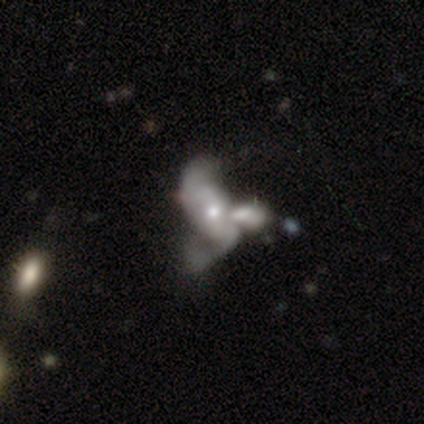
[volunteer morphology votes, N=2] Overall: featured or disk (100%). Edge-on disk: no (100%). Bar: weak (50%, tied with no). Spiral arms: yes (100%). Spiral arm count: 3 (100%). Spiral winding: medium (50%, tied with loose). Bulge size: moderate (50%, tied with small). Merging: none (50%, tied with merger).